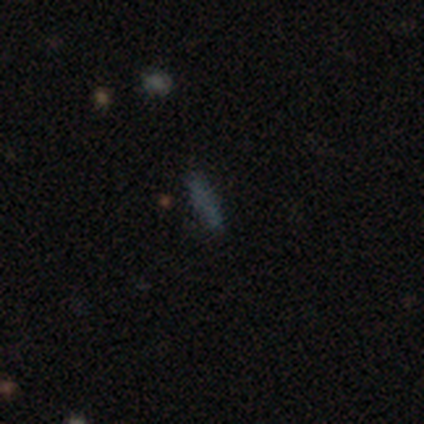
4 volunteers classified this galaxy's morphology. Smooth or featured: smooth — 75% (star or artifact — 25%)
How rounded: cigar-shaped — 100%
Merging: none — 100%